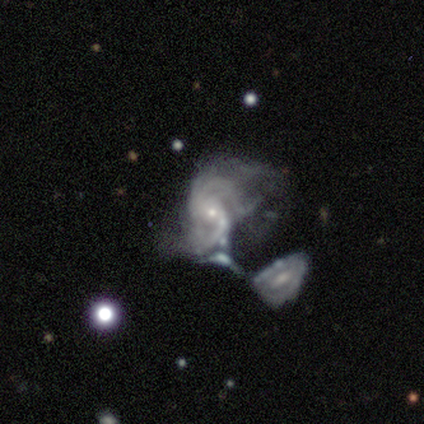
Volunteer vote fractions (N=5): Morphology: type=featured or disk (60%); edge-on=no (100%); bar=strong (33%, tied with weak and no); spiral arms=yes (100%); winding=medium (67%); arm count=2 (67%); bulge=small (67%); merging=merger (100%).